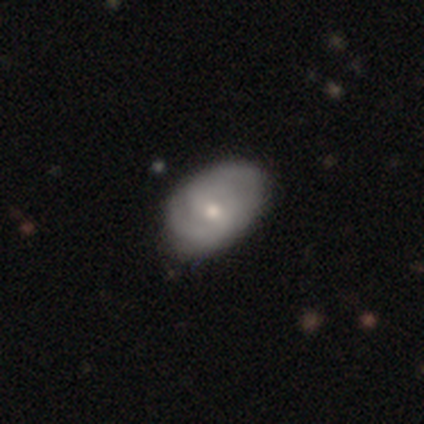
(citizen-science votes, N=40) Overall: featured or disk (80%). Edge-on disk: no (97%). Bar: weak (52%; no 45%). Spiral arms: yes (84%). Spiral arm count: 2 (85%). Spiral winding: medium (54%; tight 31%). Bulge size: moderate (55%; small 39%). Merging: none (69%).